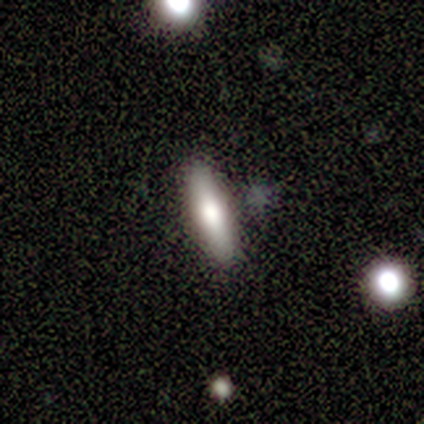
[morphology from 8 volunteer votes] smooth_or_featured: smooth (p=0.75) [alt: featured or disk p=0.25]
how_rounded: cigar-shaped (p=0.83) [alt: in between p=0.17]
merging: none (p=0.75) [alt: minor disturbance p=0.12]